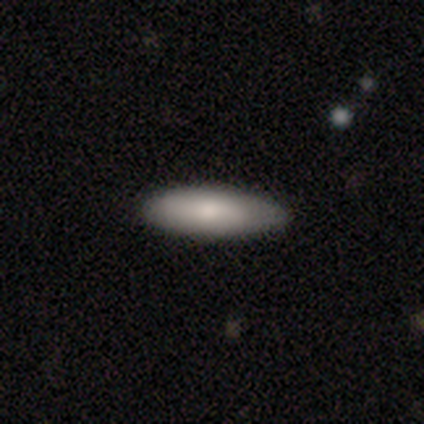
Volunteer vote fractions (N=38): A smooth galaxy with no disk features (79%) that is in between round and cigar-shaped (67%). Merging: none (47%).